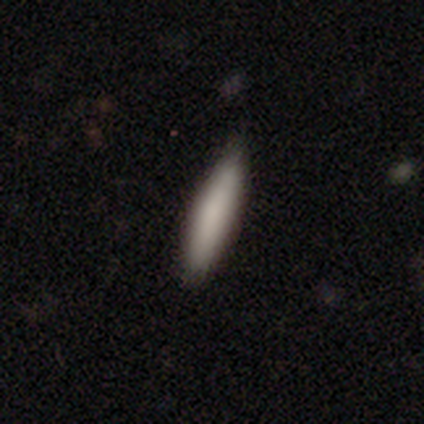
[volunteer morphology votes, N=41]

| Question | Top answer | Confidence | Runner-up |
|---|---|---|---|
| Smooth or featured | smooth | 83% | featured or disk (15%) |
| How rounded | cigar-shaped | 76% | in between (24%) |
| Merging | none | 82% | minor disturbance (15%) |